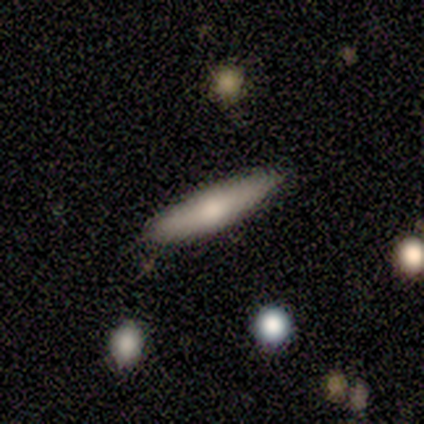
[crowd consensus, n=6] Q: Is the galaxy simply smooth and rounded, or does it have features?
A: smooth — 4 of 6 (67%).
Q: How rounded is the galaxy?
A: in between — 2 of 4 (50%, tied with cigar-shaped).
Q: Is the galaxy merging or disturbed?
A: none — 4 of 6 (67%).